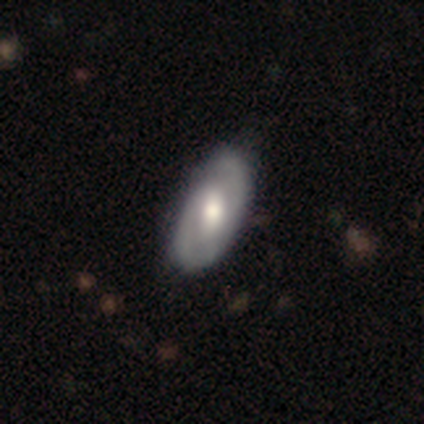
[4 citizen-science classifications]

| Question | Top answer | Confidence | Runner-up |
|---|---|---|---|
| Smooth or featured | smooth | 50% | tied: featured or disk (50%) |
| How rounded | in between | 100% | — |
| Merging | none | 75% | minor disturbance (25%) |